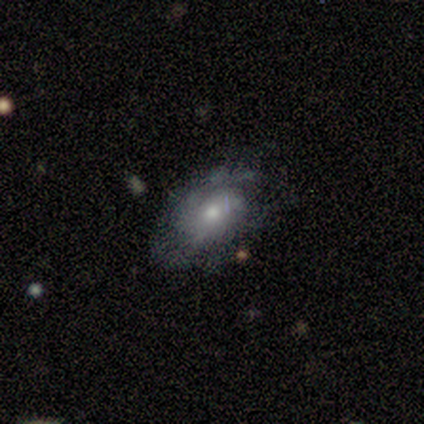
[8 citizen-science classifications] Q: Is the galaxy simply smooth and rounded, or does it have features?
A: featured or disk — 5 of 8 (62%).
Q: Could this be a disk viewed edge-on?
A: no — 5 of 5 (100%).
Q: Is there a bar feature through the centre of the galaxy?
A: no — 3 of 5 (60%).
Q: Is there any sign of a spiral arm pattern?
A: yes — 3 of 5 (60%).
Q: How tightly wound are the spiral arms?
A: tight — 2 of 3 (67%).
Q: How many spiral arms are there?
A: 2 — 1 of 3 (33%, tied with 3 and can't tell).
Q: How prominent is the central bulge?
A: moderate — 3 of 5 (60%).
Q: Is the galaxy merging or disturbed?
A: none — 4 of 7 (57%).